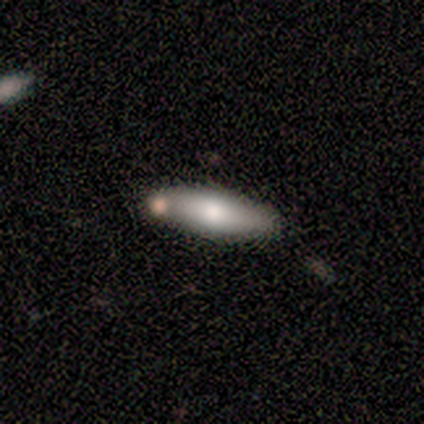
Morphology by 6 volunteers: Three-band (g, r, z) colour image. It shows a smooth galaxy with no disk features (83%) that is in between round and cigar-shaped (60%). Merging: none (67%).